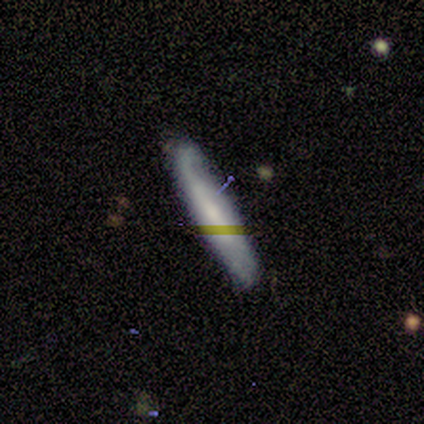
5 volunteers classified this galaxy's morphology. Smooth or featured? smooth (100%)
How rounded? cigar-shaped (100%)
Merging? none (60%)